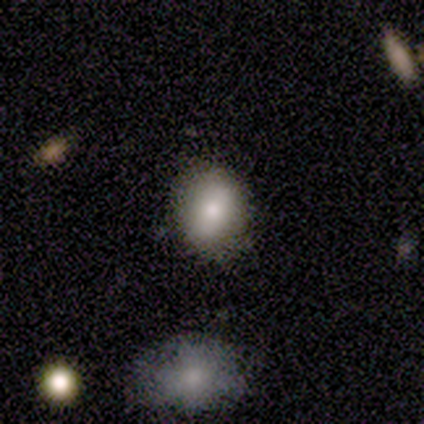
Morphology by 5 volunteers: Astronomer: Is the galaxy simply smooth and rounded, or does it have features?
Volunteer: smooth — 60%.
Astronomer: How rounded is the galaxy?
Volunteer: in between — 67%.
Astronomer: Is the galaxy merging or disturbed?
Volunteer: none — 75%.